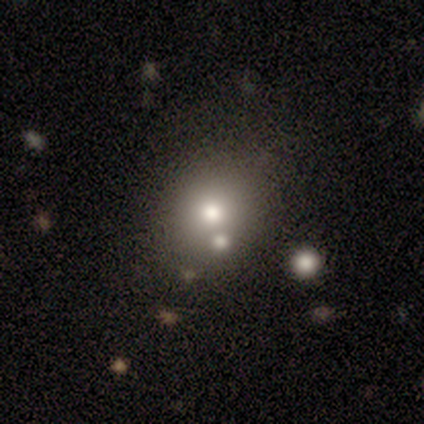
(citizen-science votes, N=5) A smooth galaxy with no disk features (100%) that is in between round and cigar-shaped (60%). Merging: none (80%).